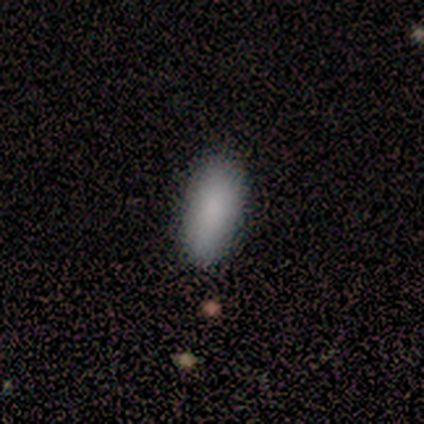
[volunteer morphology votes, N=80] Volunteers were most divided on "merging": none: 47%, merger: 4%, minor disturbance: 3%, major disturbance: 0%. More confident: smooth or featured — smooth (95%); how rounded — in between (92%).